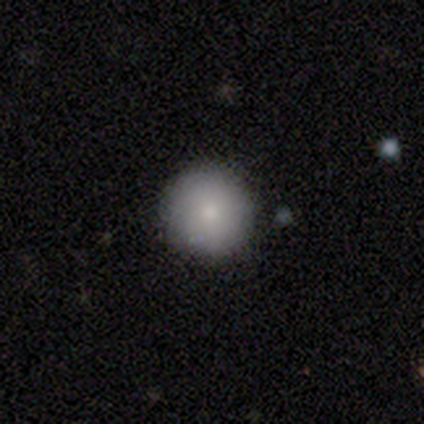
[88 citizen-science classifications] smooth_or_featured: smooth (p=0.77) [alt: featured or disk p=0.14]
how_rounded: round (p=0.96) [alt: in between p=0.03]
merging: none (p=0.91) [alt: minor disturbance p=0.07]